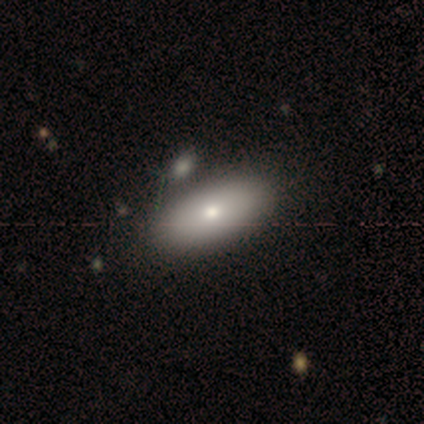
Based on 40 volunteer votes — smooth 90%, featured or disk 8%, star or artifact 2%. Down the decision tree: how rounded — in between (97%); merging — none (56%).